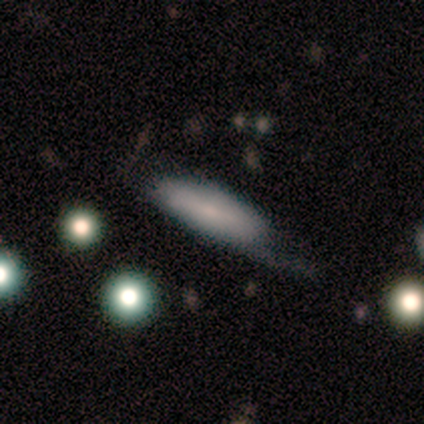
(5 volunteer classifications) smooth_or_featured: smooth (p=1.00)
how_rounded: in between (p=0.80) [alt: cigar-shaped p=0.20]
merging: none (p=0.60) [alt: minor disturbance p=0.20]